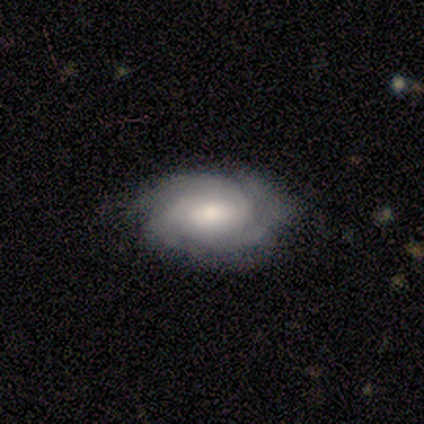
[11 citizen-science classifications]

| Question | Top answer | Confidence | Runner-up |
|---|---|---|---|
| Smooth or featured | featured or disk | 91% | smooth (9%) |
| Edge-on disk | no | 100% | — |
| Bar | weak | 50% | tied: no (50%) |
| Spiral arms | yes | 100% | — |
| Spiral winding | tight | 50% | tied: medium (50%) |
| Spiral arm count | can't tell | 50% | 3 (40%) |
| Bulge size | moderate | 70% | small (30%) |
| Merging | none | 82% | minor disturbance (18%) |